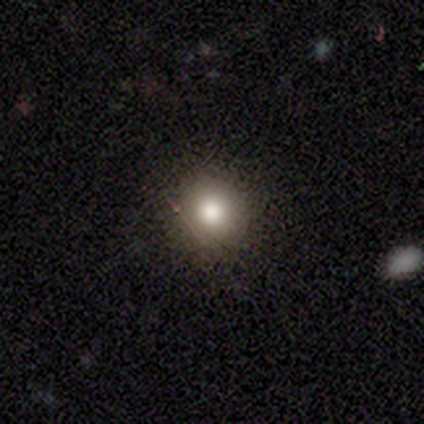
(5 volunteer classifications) Overall: smooth (60%; featured or disk 20%). How rounded: round (100%). Merging: none (100%).